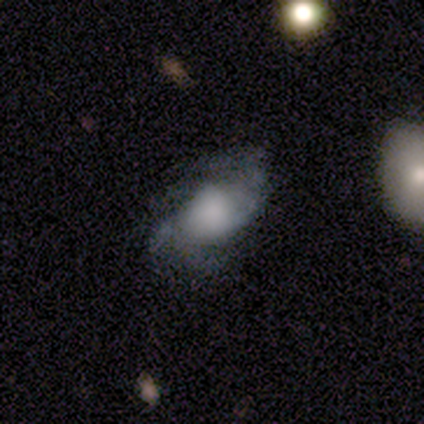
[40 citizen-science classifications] Volunteers were most divided on "spiral winding": loose: 45%, tight: 27%, medium: 27%. Remaining: spiral arms — yes (85%); edge-on disk — no (84%); bar — no (81%); smooth or featured — featured or disk (78%); merging — none (59%); bulge size — large (46%); spiral arm count — 2 (45%).